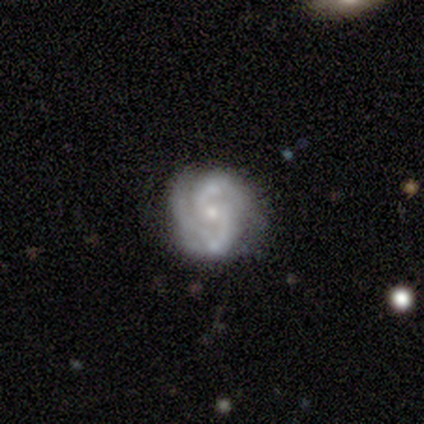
smooth-or-featured: featured or disk: 100% | smooth: 0% | star or artifact: 0%
  disk-edge-on: no: 80% | yes: 20%
    bar: no: 75% | weak: 25% | strong: 0%
    has-spiral-arms: yes: 100% | no: 0%
      spiral-winding: tight: 75% | medium: 25% | loose: 0%
      spiral-arm-count: 2: 100% | 1: 0% | 3: 0% | 4: 0% | more than 4: 0% | can't tell: 0%
    bulge-size: moderate: 50% (tied) | small: 50% (tied) | dominant: 0% | large: 0% | none: 0%
  merging: none: 100% | minor disturbance: 0% | major disturbance: 0% | merger: 0%